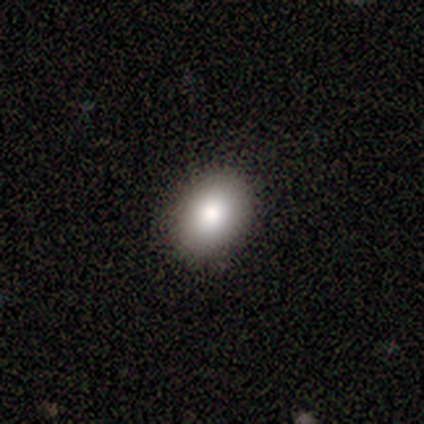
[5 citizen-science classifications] Consensus on every question: smooth or featured — smooth (100%); how rounded — in between (100%); merging — none (100%).